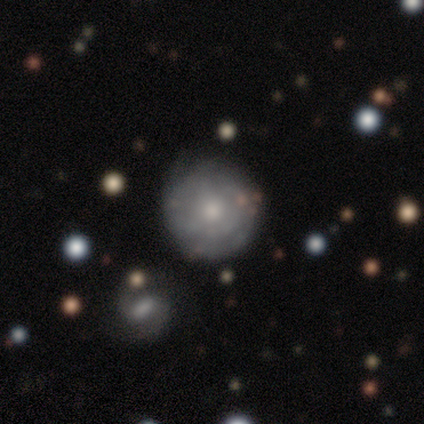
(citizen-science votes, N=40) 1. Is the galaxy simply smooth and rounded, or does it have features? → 55% featured or disk, 28% smooth, 18% star or artifact.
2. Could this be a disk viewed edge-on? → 95% no, 5% yes.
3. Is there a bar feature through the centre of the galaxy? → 76% no, 19% weak, 5% strong.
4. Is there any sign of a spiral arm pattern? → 67% yes, 33% no.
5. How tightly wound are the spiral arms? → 71% tight, 29% medium, 0% loose.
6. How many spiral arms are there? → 57% can't tell, 29% 2, 7% 1, 7% 3, 0% 4, 0% more than 4.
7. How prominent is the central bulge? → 57% moderate, 33% small, 5% large, 5% none, 0% dominant.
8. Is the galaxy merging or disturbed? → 76% none, 15% minor disturbance, 6% major disturbance, 3% merger.